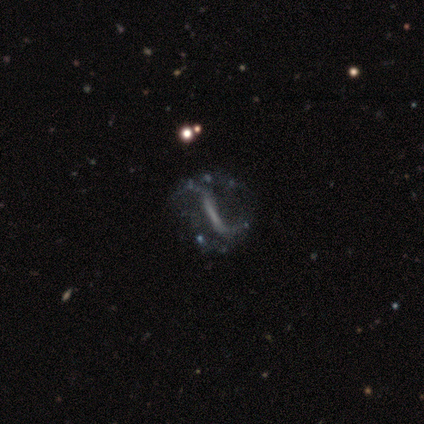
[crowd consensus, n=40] A featured or disk galaxy (85%) with a strong bar (78%), no spiral arms (56%) and no central bulge (78%). Merging: none (36%).